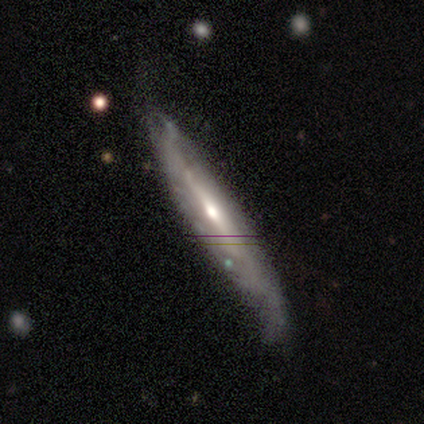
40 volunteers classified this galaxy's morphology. smooth-or-featured: featured or disk: 72% | smooth: 18% | star or artifact: 10%
  disk-edge-on: yes: 72% | no: 28%
    edge-on-bulge: rounded: 62% | none: 33% | boxy: 5%
  merging: none: 58% | minor disturbance: 31% | major disturbance: 11% | merger: 0%